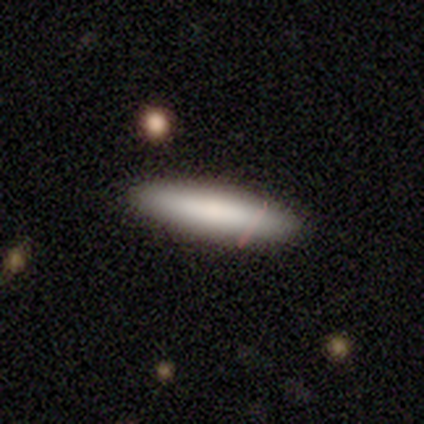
Overall: smooth (78%). How rounded: cigar-shaped (57%; in between 43%). Merging: none (67%; minor disturbance 33%).